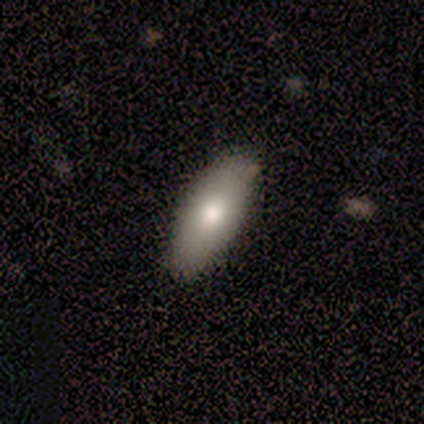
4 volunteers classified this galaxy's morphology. smooth_or_featured: smooth (p=0.75) [alt: featured or disk p=0.25]
how_rounded: in between (p=1.00)
merging: none (p=1.00)